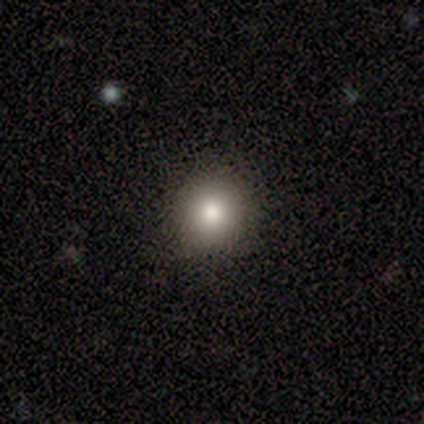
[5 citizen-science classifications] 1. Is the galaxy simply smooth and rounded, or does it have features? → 80% smooth, 20% featured or disk, 0% star or artifact.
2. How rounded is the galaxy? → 100% round, 0% in between, 0% cigar-shaped.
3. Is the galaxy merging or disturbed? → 100% none, 0% minor disturbance, 0% major disturbance, 0% merger.